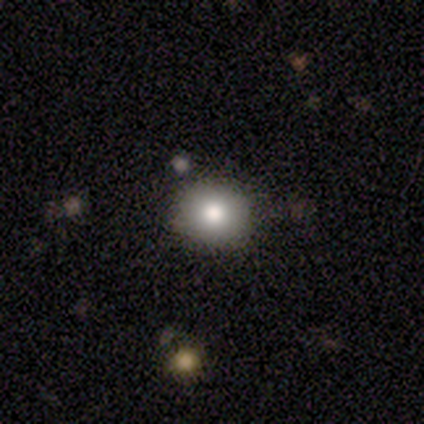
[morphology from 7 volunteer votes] Smooth or featured: smooth — 71% (featured or disk — 29%)
How rounded: round — 80% (in between — 20%)
Merging: none — 86% (minor disturbance — 14%)